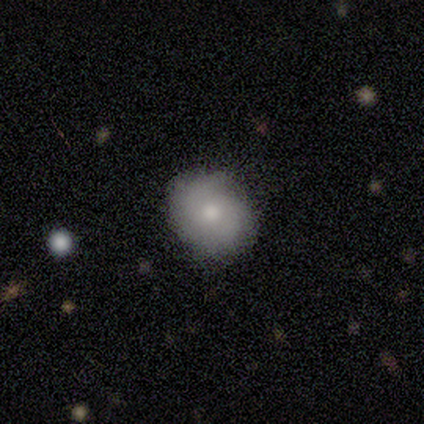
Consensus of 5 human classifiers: Smooth or featured?
  - smooth: 60% *
  - featured or disk: 40%
  - star or artifact: 0%
How rounded?
  - round: 67% *
  - in between: 33%
  - cigar-shaped: 0%
Merging?
  - none: 80% *
  - merger: 20%
  - minor disturbance: 0%
  - major disturbance: 0%